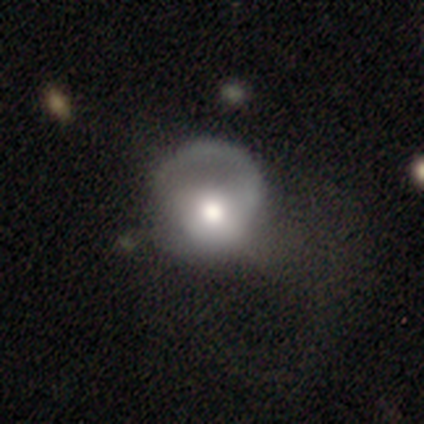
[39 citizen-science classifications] smooth-or-featured: featured or disk: 49% | smooth: 44% | star or artifact: 8%
  disk-edge-on: no: 100% | yes: 0%
    bar: no: 89% | weak: 11% | strong: 0%
    has-spiral-arms: yes: 53% | no: 47%
      spiral-winding: medium: 50% | loose: 30% | tight: 20%
      spiral-arm-count: 1: 90% | 2: 10% | 3: 0% | 4: 0% | more than 4: 0% | can't tell: 0%
    bulge-size: moderate: 74% | large: 26% | dominant: 0% | small: 0% | none: 0%
  merging: none: 47% | major disturbance: 39% | minor disturbance: 11% | merger: 3%